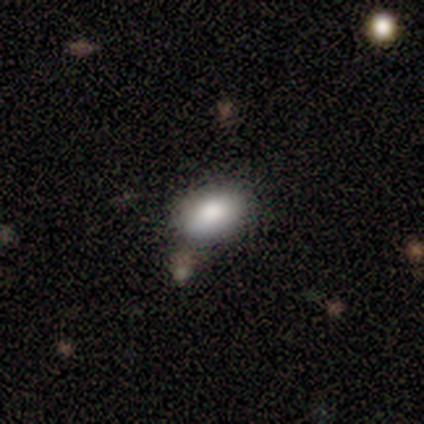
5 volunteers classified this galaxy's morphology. type=smooth (80%); roundness=in between (75%); merging=none (50%).